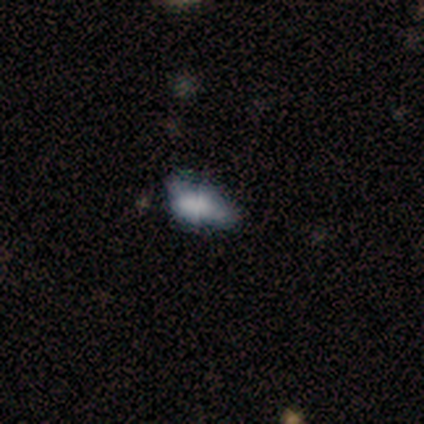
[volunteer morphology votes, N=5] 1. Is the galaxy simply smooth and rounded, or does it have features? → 80% smooth, 20% star or artifact, 0% featured or disk.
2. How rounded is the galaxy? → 75% in between, 25% cigar-shaped, 0% round.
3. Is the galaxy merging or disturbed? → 50% minor disturbance, 25% major disturbance, 25% merger, 0% none.